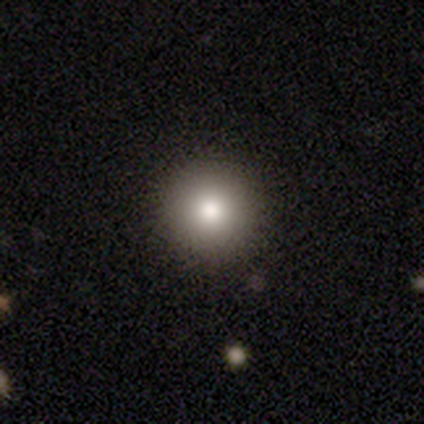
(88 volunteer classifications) This appears to be a smooth galaxy with no disk features (85%) that is round (100%). Merging: none (85%).